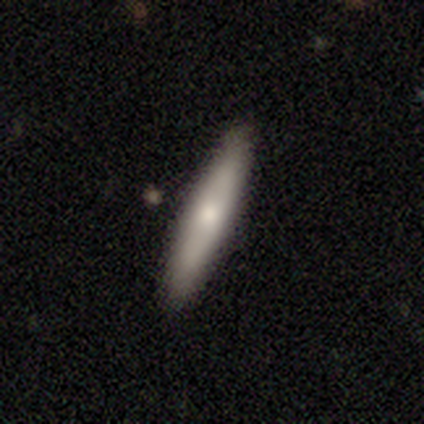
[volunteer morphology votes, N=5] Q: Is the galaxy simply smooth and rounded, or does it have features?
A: featured or disk — 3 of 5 (60%).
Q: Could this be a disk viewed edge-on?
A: yes — 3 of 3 (100%).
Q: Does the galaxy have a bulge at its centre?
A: none — 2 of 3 (67%).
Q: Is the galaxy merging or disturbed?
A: none — 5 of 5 (100%).